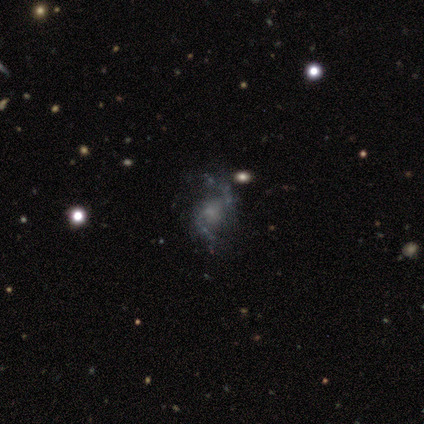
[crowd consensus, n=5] smooth-or-featured: featured or disk: 80% | star or artifact: 20% | smooth: 0%
  disk-edge-on: no: 100% | yes: 0%
    bar: weak: 50% | strong: 25% | no: 25%
    has-spiral-arms: yes: 100% | no: 0%
      spiral-winding: loose: 100% | tight: 0% | medium: 0%
      spiral-arm-count: 2: 100% | 1: 0% | 3: 0% | 4: 0% | more than 4: 0% | can't tell: 0%
    bulge-size: small: 50% | moderate: 25% | none: 25% | dominant: 0% | large: 0%
  merging: none: 100% | minor disturbance: 0% | major disturbance: 0% | merger: 0%